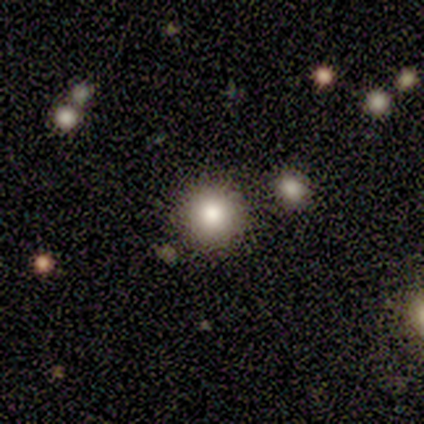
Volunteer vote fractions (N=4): smooth_or_featured: smooth (p=0.75) [alt: star or artifact p=0.25]
how_rounded: round (p=1.00)
merging: none (p=0.67) [alt: merger p=0.33]